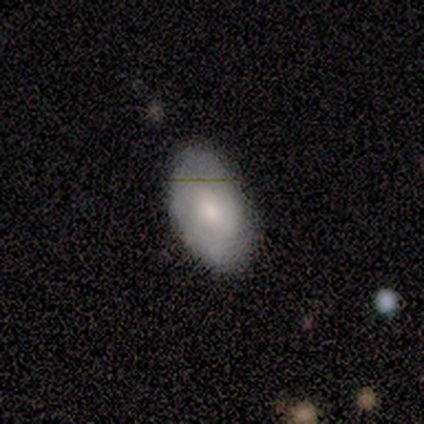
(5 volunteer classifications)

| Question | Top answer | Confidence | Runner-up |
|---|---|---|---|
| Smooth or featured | featured or disk | 60% | smooth (20%) |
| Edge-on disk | no | 100% | — |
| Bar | no | 67% | strong (33%) |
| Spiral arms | no | 67% | yes (33%) |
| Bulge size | moderate | 67% | small (33%) |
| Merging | none | 75% | minor disturbance (25%) |